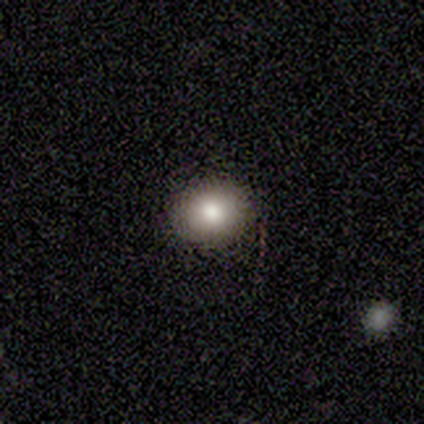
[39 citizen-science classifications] Morphology: type=smooth (87%); roundness=round (74%); merging=none (92%).